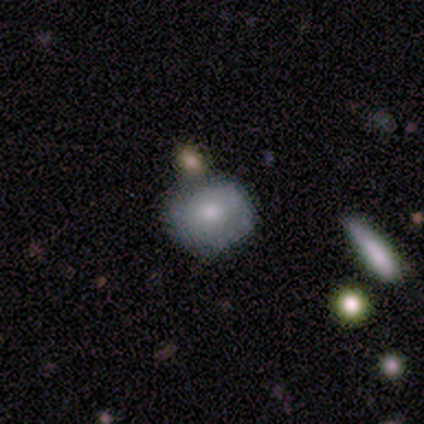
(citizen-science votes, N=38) A smooth galaxy with no disk features (66%) that is round (88%).

Vote fractions:
- Smooth or featured? smooth: 66% / featured or disk: 26% / star or artifact: 8%
- How rounded? round: 88% / in between: 12% / cigar-shaped: 0%
- Merging? none: 71% / minor disturbance: 17% / merger: 11% / major disturbance: 0%